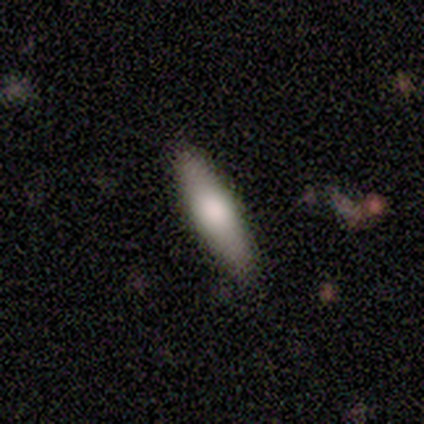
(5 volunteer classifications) Smooth or featured: featured or disk — 60% (smooth — 40%)
Edge-on disk: yes — 67% (no — 33%)
Edge-on bulge: rounded — 100%
Merging: none — 100%